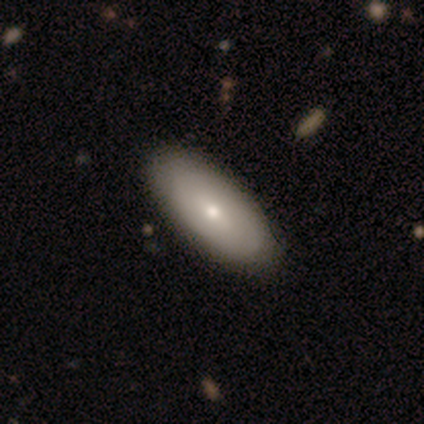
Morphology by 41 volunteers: Volunteers were most divided on "smooth or featured": smooth: 59%, featured or disk: 37%, star or artifact: 5%. More confident: how rounded — in between (96%); merging — none (79%).